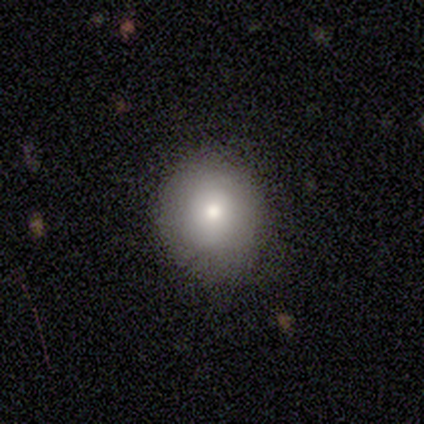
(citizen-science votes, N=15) Overall: smooth (53%; featured or disk 33%). How rounded: round (75%). Merging: none (85%).